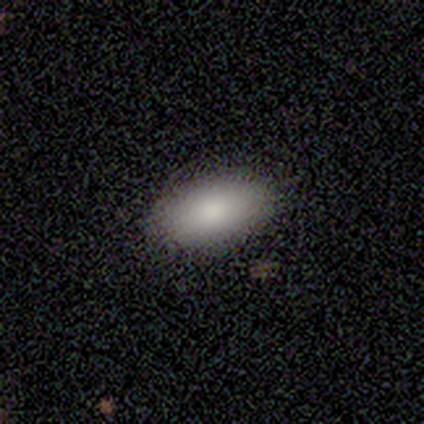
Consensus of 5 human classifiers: smooth 80%, featured or disk 20%, star or artifact 0%. Down the decision tree: how rounded — in between (100%); merging — none (80%).